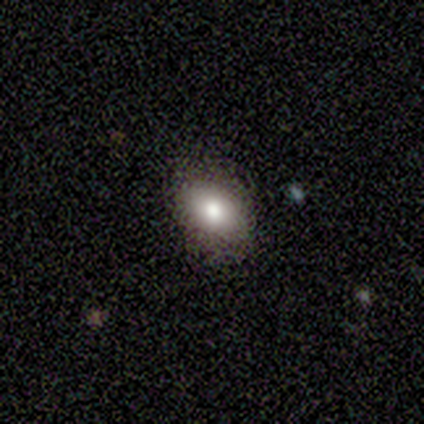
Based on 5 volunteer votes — smooth 100%, featured or disk 0%, star or artifact 0%. Down the decision tree: how rounded — in between (100%); merging — none (80%).